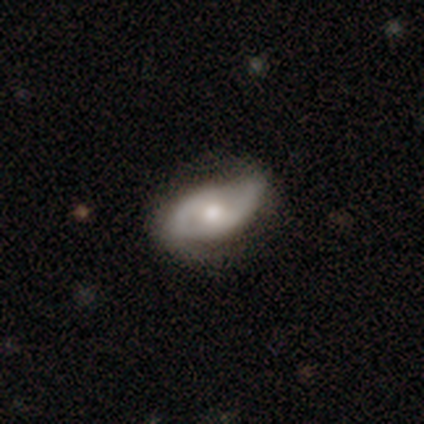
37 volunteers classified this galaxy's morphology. A featured or disk galaxy (84%) with no bar (68%), 2 (82%) loose (45%) spiral arms (79%) and a moderate central bulge (50%). Merging: none (64%).